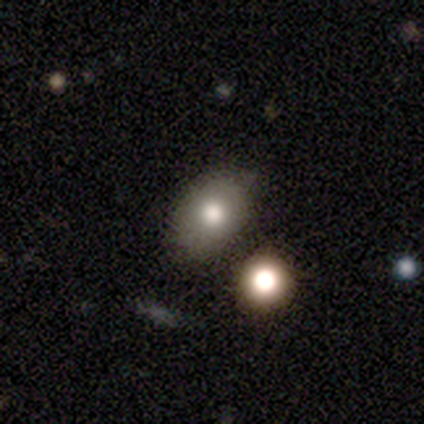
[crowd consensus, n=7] Overall: smooth (86%). How rounded: round (50%, tied with in between). Merging: none (71%).